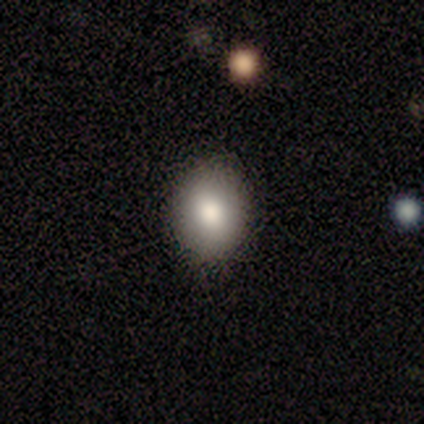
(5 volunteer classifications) Morphology: type=smooth (40%, tied with star or artifact); roundness=in between (100%); merging=none (100%).